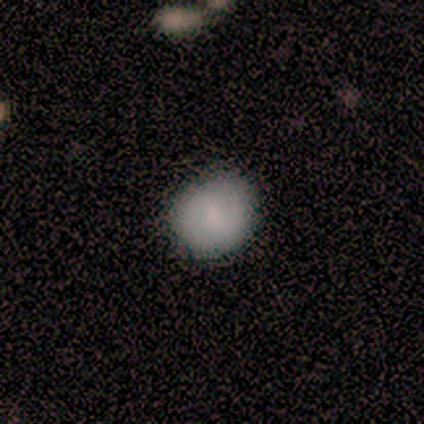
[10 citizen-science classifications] A smooth galaxy with no disk features (70%) that is round (100%).

Vote fractions:
- Smooth or featured? smooth: 70% / featured or disk: 20% / star or artifact: 10%
- How rounded? round: 100% / in between: 0% / cigar-shaped: 0%
- Merging? none: 100% / minor disturbance: 0% / major disturbance: 0% / merger: 0%